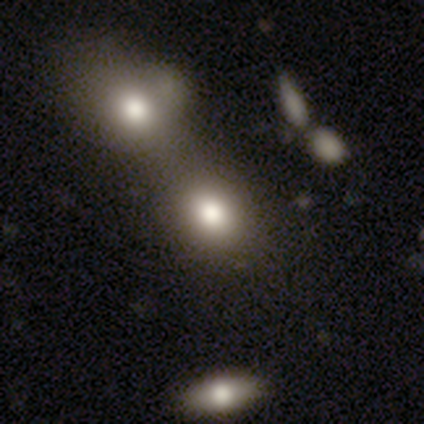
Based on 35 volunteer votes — smooth_or_featured: smooth (p=0.86) [alt: star or artifact p=0.14]
how_rounded: round (p=0.57) [alt: in between p=0.43]
merging: merger (p=0.57)